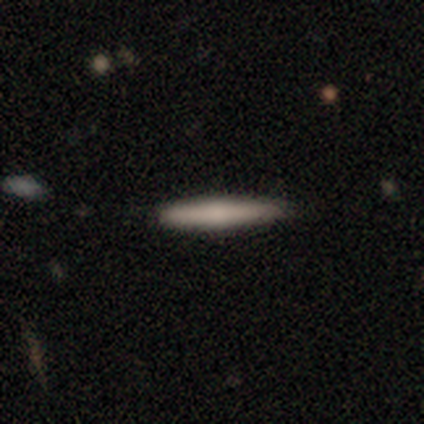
smooth 50% (tied), featured or disk 50% (tied), star or artifact 0%. Down the decision tree: how rounded — cigar-shaped (100%); merging — none (100%).